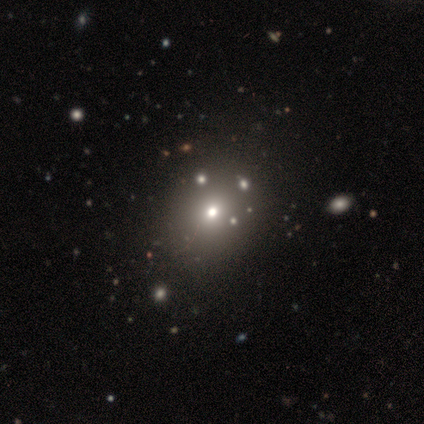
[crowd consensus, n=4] Smooth or featured: featured or disk — 50% (smooth — 25%)
Edge-on disk: no — 100%
Bar: no — 100%
Spiral arms: no — 100%
Bulge size: moderate — 100%
Merging: none — 100%